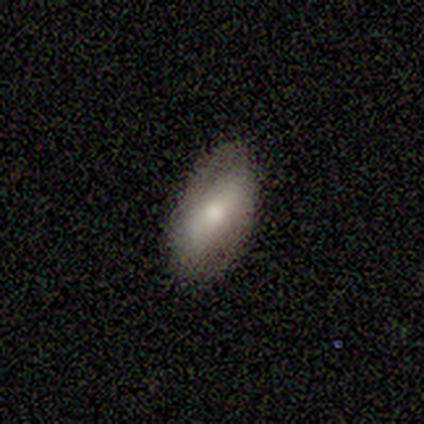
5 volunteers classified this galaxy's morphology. A smooth galaxy with no disk features (60%) that is in between round and cigar-shaped (67%).

Vote fractions:
- Smooth or featured? smooth: 60% / featured or disk: 40% / star or artifact: 0%
- How rounded? in between: 67% / round: 33% / cigar-shaped: 0%
- Merging? none: 60% / minor disturbance: 20% / merger: 20% / major disturbance: 0%